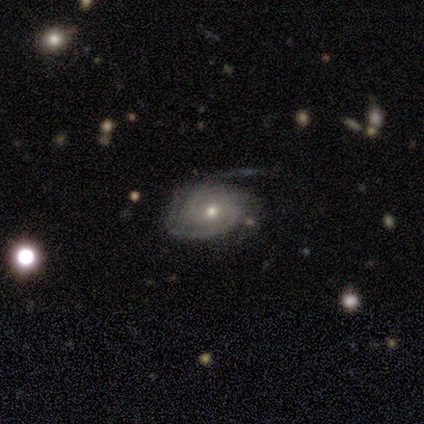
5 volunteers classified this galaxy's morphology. A featured or disk galaxy (100%) with no bar (100%), 3 (50%) tight (50%) spiral arms (80%) and a small central bulge (80%).

Vote fractions:
- Smooth or featured? featured or disk: 100% / smooth: 0% / star or artifact: 0%
- Edge-on disk? no: 100% / yes: 0%
- Bar? no: 100% / strong: 0% / weak: 0%
- Spiral arms? yes: 80% / no: 20%
- Spiral winding? tight: 50% / medium: 25% / loose: 25%
- Spiral arm count? 3: 50% / 1: 25% / can't tell: 25% / 2: 0% / 4: 0% / more than 4: 0%
- Bulge size? small: 80% / moderate: 20% / dominant: 0% / large: 0% / none: 0%
- Merging? none: 60% / minor disturbance: 40% / major disturbance: 0% / merger: 0%